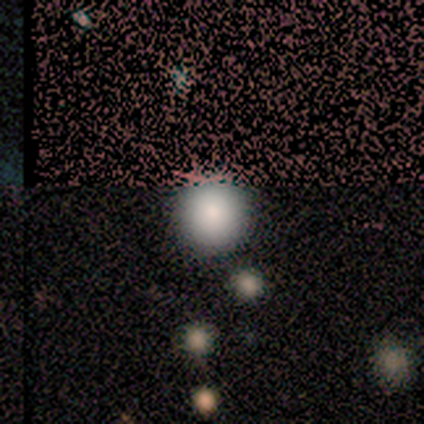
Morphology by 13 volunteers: This is clearly a smooth galaxy (85%). How rounded: clearly round (100%). Merging: clearly none (92%).